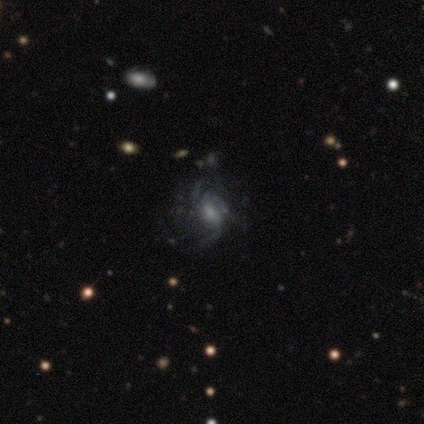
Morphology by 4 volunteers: Overall: featured or disk (75%). Edge-on disk: no (100%). Bar: weak (67%; no 33%). Spiral arms: yes (100%). Spiral arm count: 3 (100%). Spiral winding: medium (67%; tight 33%). Bulge size: small (67%; moderate 33%). Merging: none (100%).